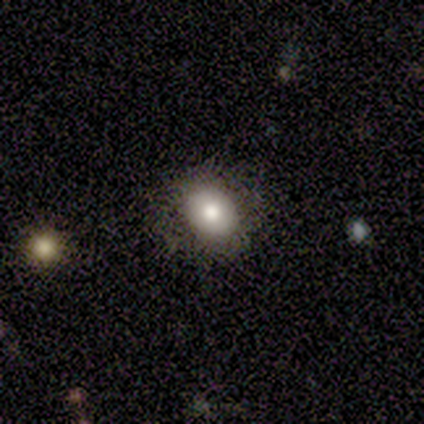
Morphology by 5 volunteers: This is likely a featured or disk galaxy (60%). It is clearly not viewed edge-on (100%). Bar: clearly no (100%). Spiral arm pattern: clearly no (100%). Central bulge: clearly moderate (100%). Merging: clearly none (80%).